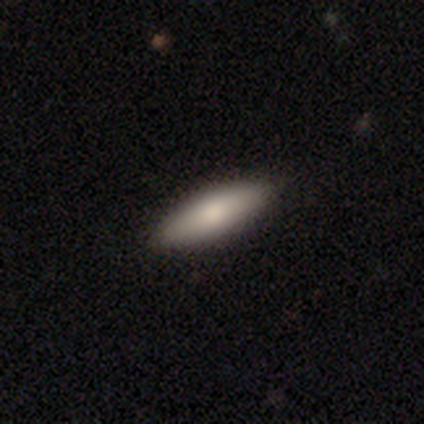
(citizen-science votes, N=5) smooth_or_featured: smooth (p=0.80) [alt: star or artifact p=0.20]
how_rounded: in between (p=0.50) [tied with: cigar-shaped p=0.50]
merging: none (p=1.00)